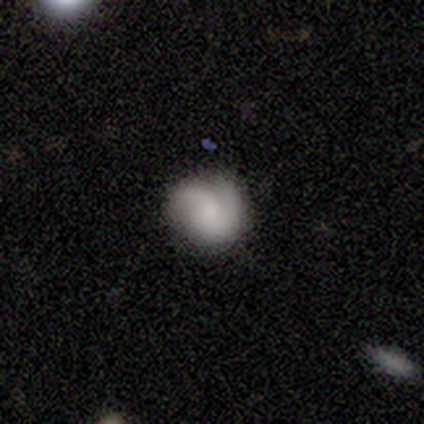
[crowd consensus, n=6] smooth 67%, featured or disk 33%, star or artifact 0%. Down the decision tree: how rounded — round (100%); merging — none (50%).